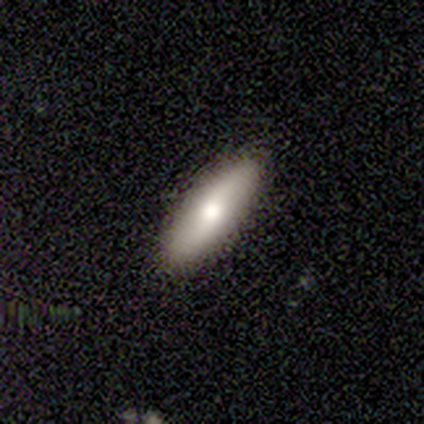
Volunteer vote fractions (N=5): Smooth or featured? 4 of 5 (80%) said smooth. How rounded? 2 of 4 (50%, tied with cigar-shaped) said in between. Merging? 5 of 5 (100%) said none.